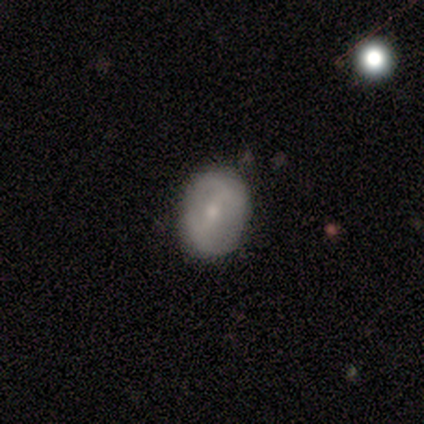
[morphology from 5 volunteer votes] Volunteers were most divided on "how rounded" (2-way tie): round: 50%, in between: 50%, cigar-shaped: 0%. More confident: merging — none (100%); smooth or featured — smooth (80%).